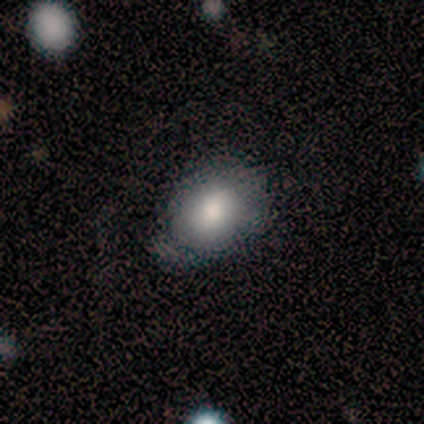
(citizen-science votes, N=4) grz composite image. It shows a smooth galaxy with no disk features (100%) that is in between round and cigar-shaped (100%). Merging: none (75%).